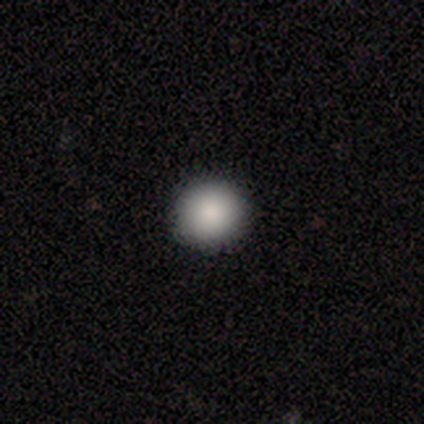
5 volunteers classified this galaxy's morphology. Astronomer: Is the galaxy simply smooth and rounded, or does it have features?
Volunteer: smooth — 60% (runner-up: star or artifact, 40%).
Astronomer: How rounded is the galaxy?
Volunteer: round — 100%.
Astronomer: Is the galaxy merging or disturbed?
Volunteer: none — 100%.